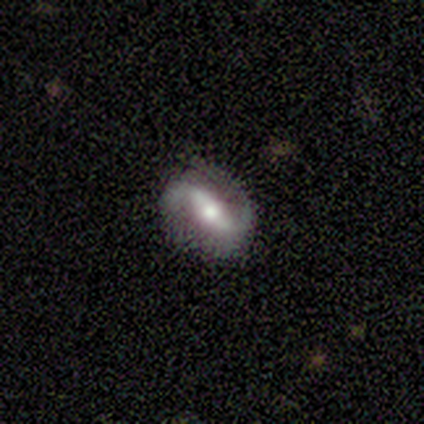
smooth-or-featured: featured or disk: 100% | smooth: 0% | star or artifact: 0%
  disk-edge-on: no: 100% | yes: 0%
    bar: weak: 80% | strong: 20% | no: 0%
    has-spiral-arms: no: 80% | yes: 20%
    bulge-size: moderate: 80% | small: 20% | dominant: 0% | large: 0% | none: 0%
  merging: none: 100% | minor disturbance: 0% | major disturbance: 0% | merger: 0%